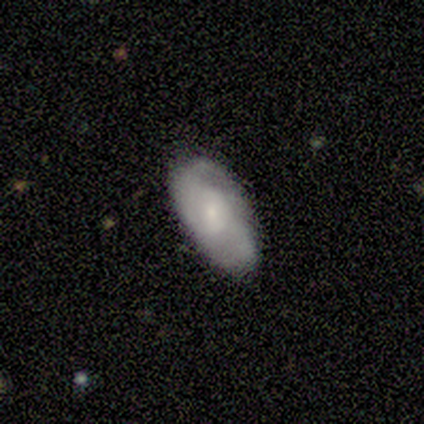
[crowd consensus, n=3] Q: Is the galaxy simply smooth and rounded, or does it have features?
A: featured or disk — 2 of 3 (67%).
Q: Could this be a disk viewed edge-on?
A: no — 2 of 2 (100%).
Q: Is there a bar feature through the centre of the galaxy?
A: no — 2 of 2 (100%).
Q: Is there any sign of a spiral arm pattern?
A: yes — 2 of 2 (100%).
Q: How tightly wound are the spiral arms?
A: loose — 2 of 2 (100%).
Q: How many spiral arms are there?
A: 2 — 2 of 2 (100%).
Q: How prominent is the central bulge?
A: dominant — 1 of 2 (50%, tied with small).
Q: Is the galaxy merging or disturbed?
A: none — 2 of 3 (67%).